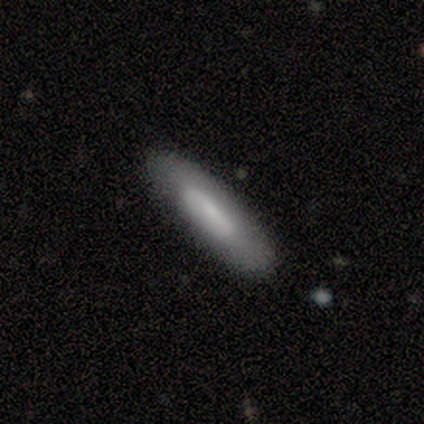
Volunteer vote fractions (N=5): Smooth or featured? 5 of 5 (100%) said smooth. How rounded? 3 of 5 (60%) said in between. Merging? 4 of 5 (80%) said none.